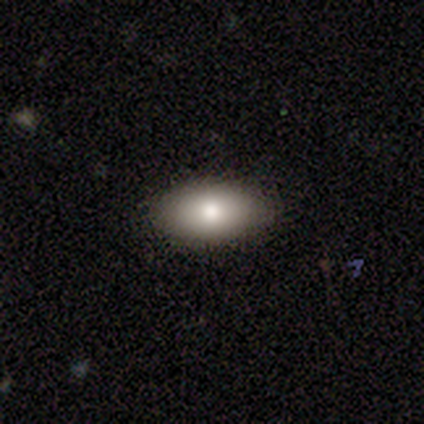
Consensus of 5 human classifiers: smooth 80%, featured or disk 20%, star or artifact 0%. Down the decision tree: how rounded — in between (100%); merging — none (80%).